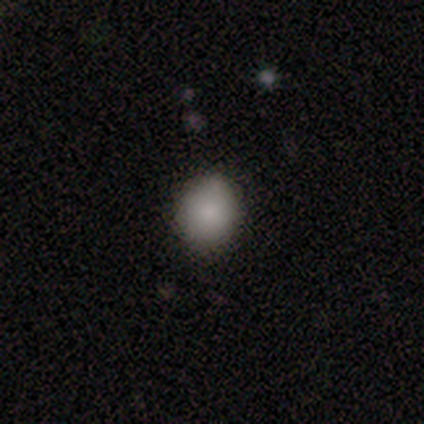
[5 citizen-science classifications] smooth 80%, featured or disk 20%, star or artifact 0%. Down the decision tree: how rounded — round (75%); merging — none (80%).